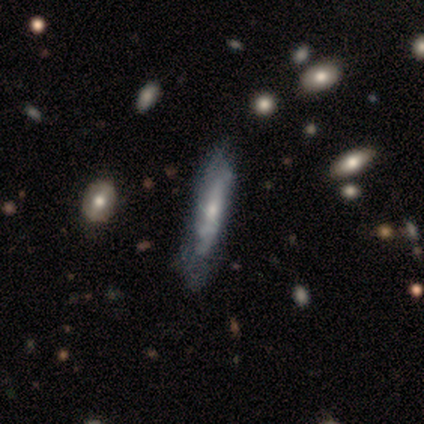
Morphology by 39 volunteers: Q: Smooth or featured?
A: featured or disk (69%); runner-up: smooth (26%)
Q: Edge-on disk?
A: no (63%); runner-up: yes (37%)
Q: Bar?
A: no (76%); runner-up: weak (18%)
Q: Spiral arms?
A: yes (71%); runner-up: no (29%)
Q: Spiral winding?
A: tight (50%); tied with: medium (50%)
Q: Spiral arm count?
A: can't tell (92%); runner-up: 2 (8%)
Q: Bulge size?
A: small (47%); runner-up: moderate (41%)
Q: Merging?
A: none (43%); runner-up: minor disturbance (19%)